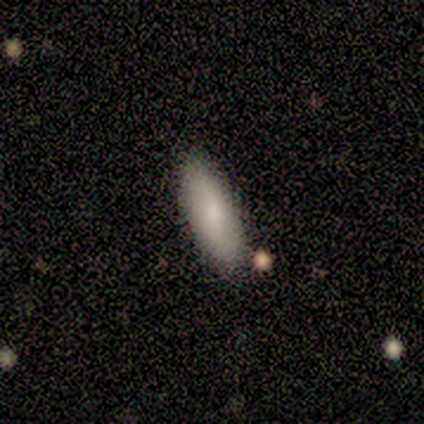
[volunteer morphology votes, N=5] Smooth or featured?
  - smooth: 80% *
  - featured or disk: 20%
  - star or artifact: 0%
How rounded?
  - cigar-shaped: 100% *
  - round: 0%
  - in between: 0%
Merging?
  - none: 100% *
  - minor disturbance: 0%
  - major disturbance: 0%
  - merger: 0%